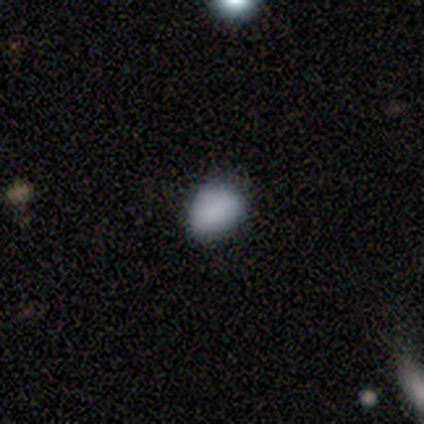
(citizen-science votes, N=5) Smooth or featured?
  - smooth: 80% *
  - star or artifact: 20%
  - featured or disk: 0%
How rounded?
  - in between: 75% *
  - round: 25%
  - cigar-shaped: 0%
Merging?
  - none: 50% * (tied)
  - minor disturbance: 50% * (tied)
  - major disturbance: 0%
  - merger: 0%